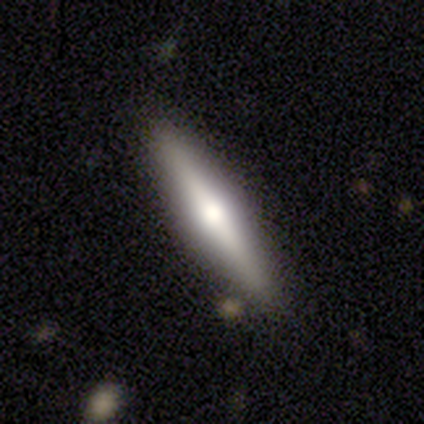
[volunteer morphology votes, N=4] smooth-or-featured: smooth: 50% | featured or disk: 25% | star or artifact: 25%
  how-rounded: in between: 50% (tied) | cigar-shaped: 50% (tied) | round: 0%
  merging: none: 100% | minor disturbance: 0% | major disturbance: 0% | merger: 0%